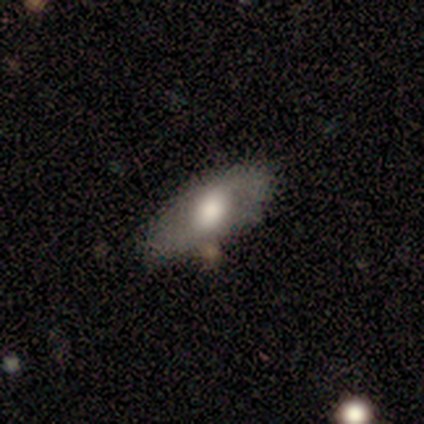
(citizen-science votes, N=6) Smooth or featured? 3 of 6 (50%) said smooth. How rounded? 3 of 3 (100%) said in between. Merging? 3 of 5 (60%) said none.